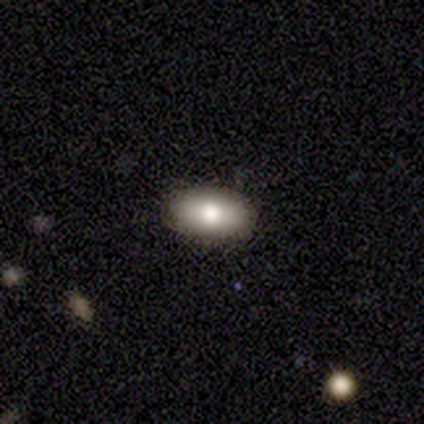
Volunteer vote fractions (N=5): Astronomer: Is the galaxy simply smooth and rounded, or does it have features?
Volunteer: smooth — 100%.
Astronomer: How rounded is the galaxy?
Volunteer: in between — 80%.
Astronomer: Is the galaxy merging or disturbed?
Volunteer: none — 100%.